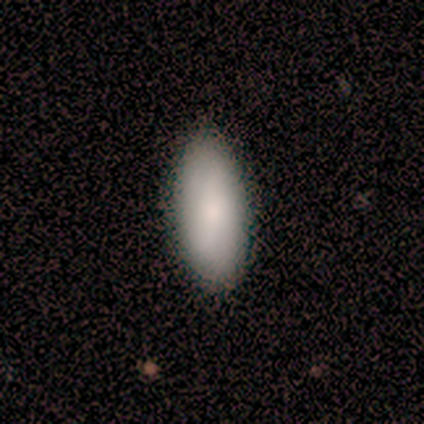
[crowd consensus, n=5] This appears to be a smooth galaxy with no disk features (100%) that is in between round and cigar-shaped (60%). Merging: none (100%).